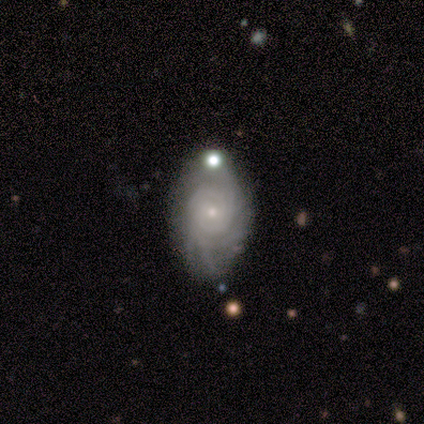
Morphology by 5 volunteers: smooth_or_featured: featured or disk (p=1.00)
disk_edge_on: no (p=1.00)
bar: no (p=0.80) [alt: weak p=0.20]
has_spiral_arms: yes (p=1.00)
spiral_winding: tight (p=0.80) [alt: medium p=0.20]
spiral_arm_count: can't tell (p=0.80) [alt: 4 p=0.20]
bulge_size: small (p=0.80) [alt: moderate p=0.20]
merging: none (p=0.60) [alt: minor disturbance p=0.40]